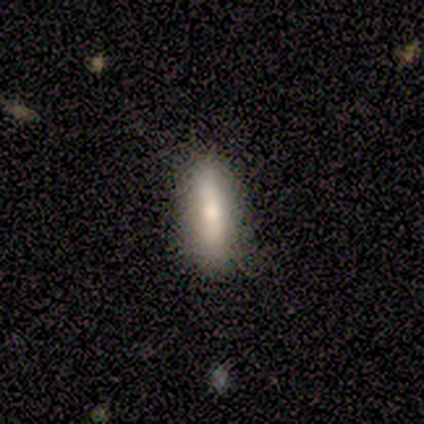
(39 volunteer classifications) A smooth galaxy with no disk features (56%) that is in between round and cigar-shaped (50%, tied with cigar-shaped).

Vote fractions:
- Smooth or featured? smooth: 56% / featured or disk: 38% / star or artifact: 5%
- How rounded? in between: 50% (tied) / cigar-shaped: 50% (tied) / round: 0%
- Merging? none: 89% / minor disturbance: 11% / major disturbance: 0% / merger: 0%